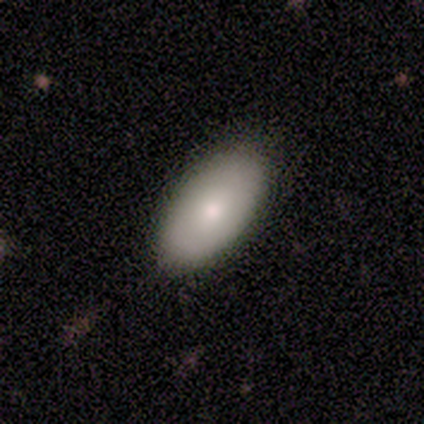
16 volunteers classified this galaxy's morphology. A smooth galaxy with no disk features (100%) that is in between round and cigar-shaped (100%).

Vote fractions:
- Smooth or featured? smooth: 100% / featured or disk: 0% / star or artifact: 0%
- How rounded? in between: 100% / round: 0% / cigar-shaped: 0%
- Merging? none: 88% / minor disturbance: 12% / major disturbance: 0% / merger: 0%